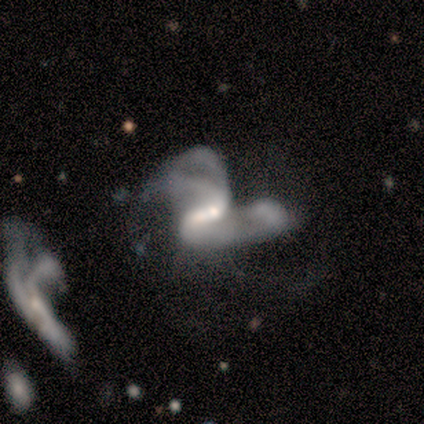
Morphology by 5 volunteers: smooth_or_featured: featured or disk (p=1.00)
disk_edge_on: no (p=1.00)
bar: weak (p=0.80) [alt: strong p=0.20]
has_spiral_arms: yes (p=1.00)
spiral_winding: medium (p=0.60) [alt: loose p=0.40]
spiral_arm_count: 2 (p=0.40) [tied with: can't tell p=0.40]
bulge_size: moderate (p=0.60) [alt: small p=0.20]
merging: major disturbance (p=0.40) [tied with: merger p=0.40]